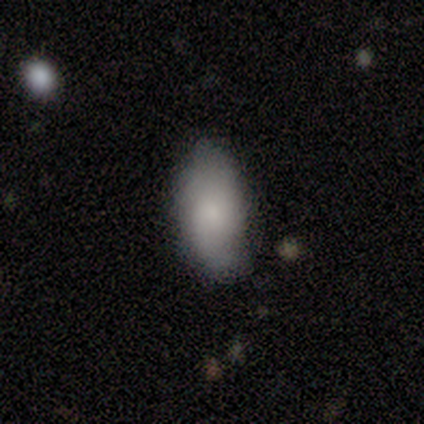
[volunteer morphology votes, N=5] smooth_or_featured: smooth (p=0.60) [alt: featured or disk p=0.40]
how_rounded: in between (p=1.00)
merging: none (p=0.80) [alt: minor disturbance p=0.20]